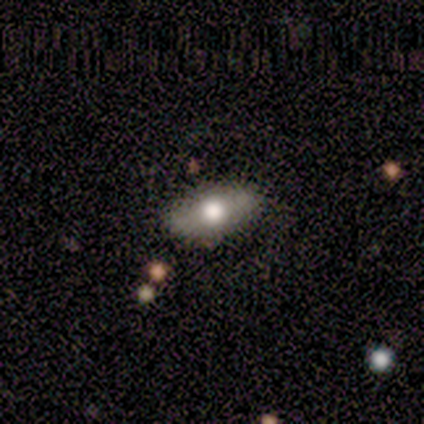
Smooth or featured?
  - smooth: 63% *
  - featured or disk: 29%
  - star or artifact: 7%
How rounded?
  - in between: 85% *
  - round: 8%
  - cigar-shaped: 8%
Merging?
  - none: 87% *
  - minor disturbance: 11%
  - major disturbance: 3%
  - merger: 0%